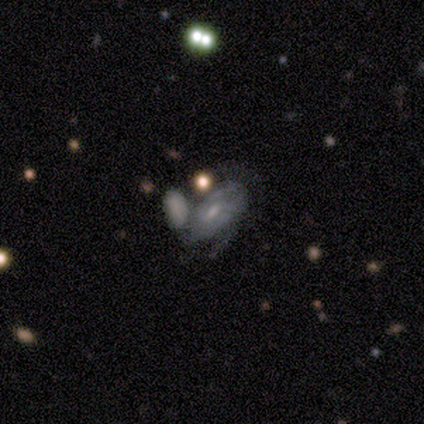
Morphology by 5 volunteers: Smooth or featured? 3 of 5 (60%) said smooth. How rounded? 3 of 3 (100%) said in between. Merging? 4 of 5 (80%) said merger.